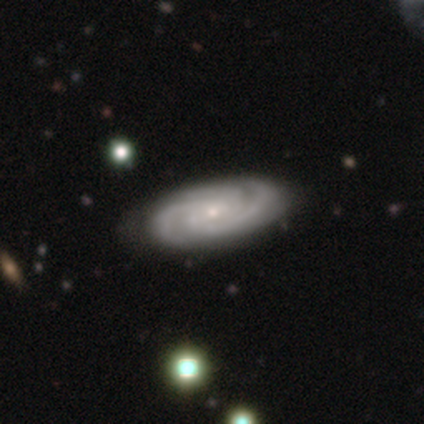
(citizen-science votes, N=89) Smooth or featured: featured or disk — 88% (smooth — 8%)
Edge-on disk: no — 88% (yes — 12%)
Bar: no — 58% (weak — 30%)
Spiral arms: yes — 97% (no — 3%)
Spiral winding: tight — 69% (medium — 28%)
Spiral arm count: 3 — 72% (2 — 15%)
Bulge size: small — 93% (moderate — 6%)
Merging: none — 88% (minor disturbance — 6%)